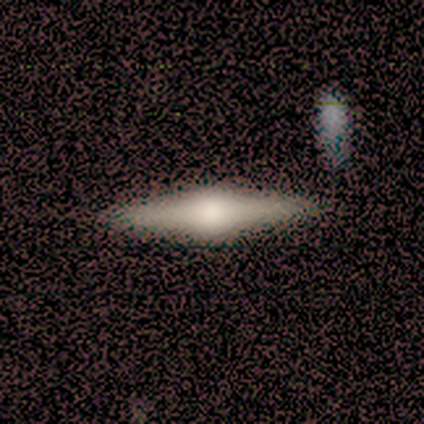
A featured or disk galaxy (71%) viewed edge-on (96%) with a rounded central bulge (96%). Merging: none (51%).